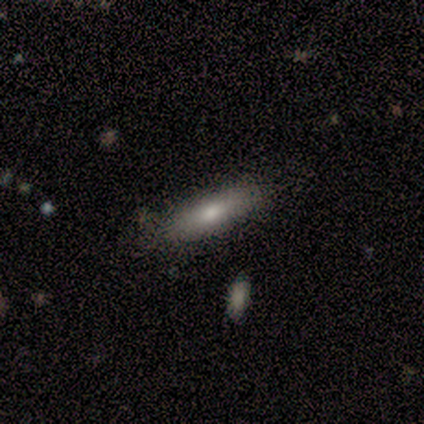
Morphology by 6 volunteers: Smooth or featured?
  - featured or disk: 67% *
  - smooth: 33%
  - star or artifact: 0%
Edge-on disk?
  - yes: 100% *
  - no: 0%
Edge-on bulge?
  - rounded: 75% *
  - none: 25%
  - boxy: 0%
Merging?
  - none: 67% *
  - minor disturbance: 33%
  - major disturbance: 0%
  - merger: 0%